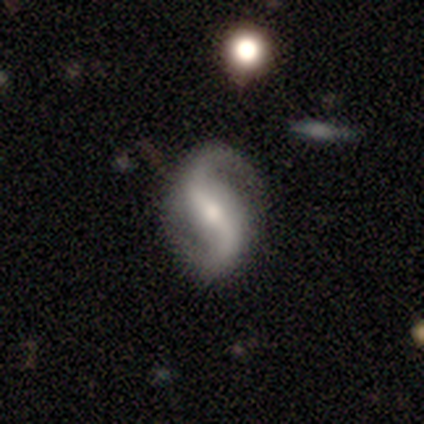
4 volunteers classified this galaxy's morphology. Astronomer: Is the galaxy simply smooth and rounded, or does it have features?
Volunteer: featured or disk — 100%.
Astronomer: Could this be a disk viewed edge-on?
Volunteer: no — 100%.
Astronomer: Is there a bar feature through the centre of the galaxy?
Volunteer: weak — 50%.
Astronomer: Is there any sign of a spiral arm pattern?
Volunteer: yes — 100%.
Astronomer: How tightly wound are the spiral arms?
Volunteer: medium — 50%, tied with loose at 50%.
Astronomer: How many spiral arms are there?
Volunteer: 2 — 100%.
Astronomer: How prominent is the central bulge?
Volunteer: moderate — 75%.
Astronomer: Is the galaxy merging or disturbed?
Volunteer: none — 100%.